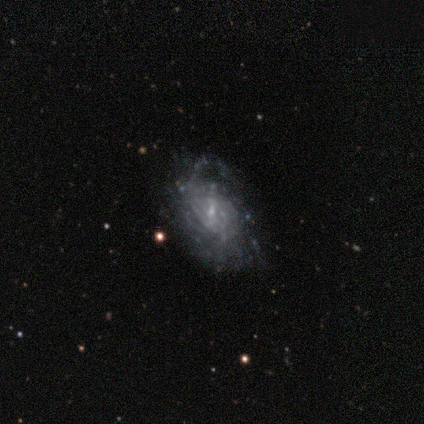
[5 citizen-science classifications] Smooth or featured: featured or disk — 80% (smooth — 20%)
Edge-on disk: no — 100%
Bar: weak — 50% (tied with no — 50%)
Spiral arms: no — 75% (yes — 25%)
Bulge size: small — 100%
Merging: minor disturbance — 40% (tied with major disturbance — 40%)